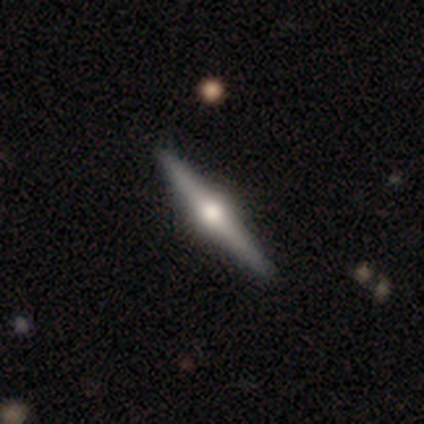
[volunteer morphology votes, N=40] A featured or disk galaxy (80%) viewed edge-on (100%) with a rounded central bulge (100%).

Vote fractions:
- Smooth or featured? featured or disk: 80% / smooth: 20% / star or artifact: 0%
- Edge-on disk? yes: 100% / no: 0%
- Edge-on bulge? rounded: 100% / boxy: 0% / none: 0%
- Merging? none: 82% / minor disturbance: 12% / major disturbance: 2% / merger: 2%